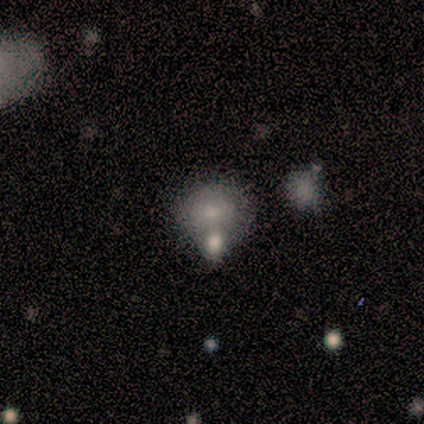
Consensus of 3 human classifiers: Smooth or featured: smooth — 67% (star or artifact — 33%)
How rounded: round — 100%
Merging: minor disturbance — 50% (tied with merger — 50%)